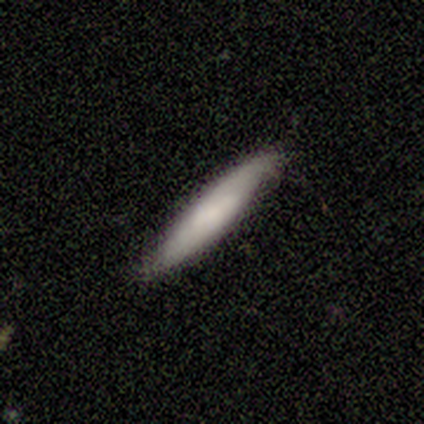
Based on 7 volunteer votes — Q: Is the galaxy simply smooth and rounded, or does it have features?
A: smooth — 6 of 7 (86%).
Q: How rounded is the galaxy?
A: cigar-shaped — 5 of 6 (83%).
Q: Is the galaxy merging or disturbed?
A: none — 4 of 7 (57%).